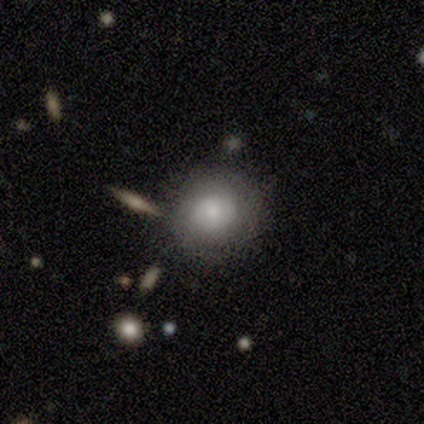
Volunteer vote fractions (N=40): smooth-or-featured: smooth: 52% | featured or disk: 38% | star or artifact: 10%
  how-rounded: round: 86% | in between: 10% | cigar-shaped: 5%
  merging: none: 75% | minor disturbance: 11% | merger: 8% | major disturbance: 6%